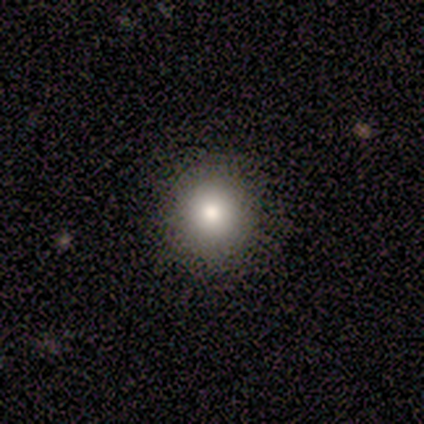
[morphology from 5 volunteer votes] smooth-or-featured: smooth: 100% | featured or disk: 0% | star or artifact: 0%
  how-rounded: round: 100% | in between: 0% | cigar-shaped: 0%
  merging: none: 100% | minor disturbance: 0% | major disturbance: 0% | merger: 0%